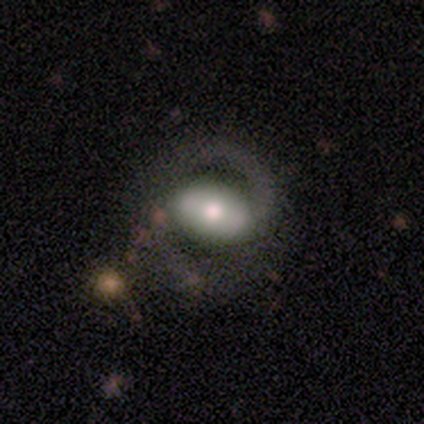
Volunteers were most divided on "bar" (3-way tie): strong: 33%, weak: 33%, no: 33%; "spiral winding" (3-way tie): tight: 33%, medium: 33%, loose: 33%. More confident: smooth or featured — featured or disk (100%); edge-on disk — no (100%); spiral arms — yes (100%); spiral arm count — 2 (100%); bulge size — moderate (67%); merging — none (67%).